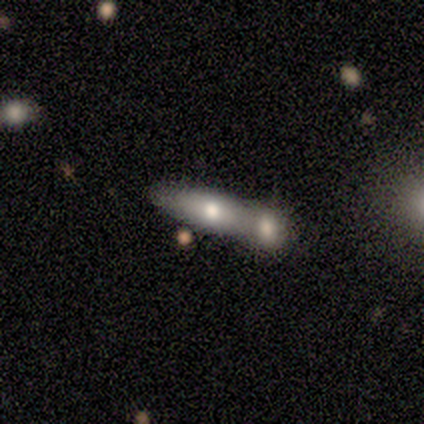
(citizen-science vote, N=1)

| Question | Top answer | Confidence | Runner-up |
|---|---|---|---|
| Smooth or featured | smooth | 100% | — |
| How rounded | cigar-shaped | 100% | — |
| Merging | merger | 100% | — |